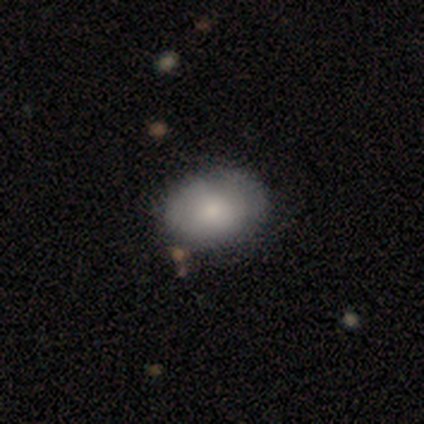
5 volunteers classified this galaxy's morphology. This is clearly a smooth galaxy (100%). How rounded: clearly in between (80%). Merging: clearly none (80%).